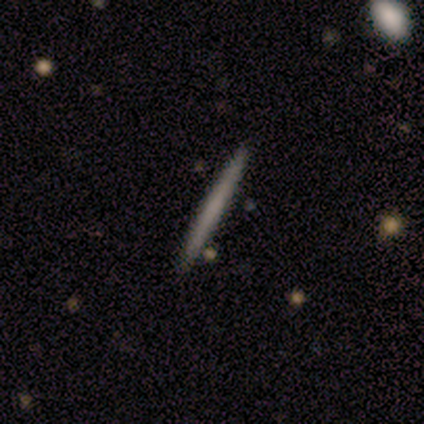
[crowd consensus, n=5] Smooth or featured?
  - smooth: 60% *
  - featured or disk: 20%
  - star or artifact: 20%
How rounded?
  - cigar-shaped: 100% *
  - round: 0%
  - in between: 0%
Merging?
  - none: 100% *
  - minor disturbance: 0%
  - major disturbance: 0%
  - merger: 0%